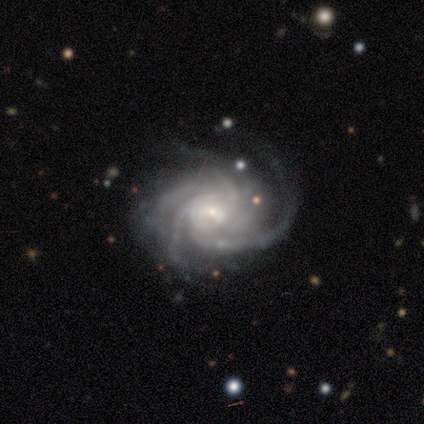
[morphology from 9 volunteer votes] smooth-or-featured: featured or disk: 89% | star or artifact: 11% | smooth: 0%
  disk-edge-on: no: 100% | yes: 0%
    bar: weak: 50% (tied) | no: 50% (tied) | strong: 0%
    has-spiral-arms: yes: 100% | no: 0%
      spiral-winding: medium: 75% | tight: 25% | loose: 0%
      spiral-arm-count: 4: 38% (tied) | more than 4: 38% (tied) | 3: 25% | 1: 0% | 2: 0% | can't tell: 0%
    bulge-size: small: 75% | moderate: 25% | dominant: 0% | large: 0% | none: 0%
  merging: none: 38% (tied) | minor disturbance: 38% (tied) | major disturbance: 25% | merger: 0%